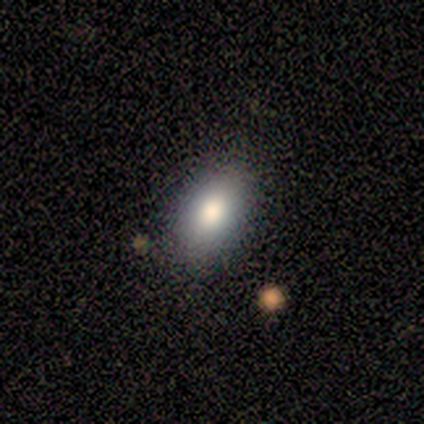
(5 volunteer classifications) Smooth or featured? 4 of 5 (80%) said smooth. How rounded? 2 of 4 (50%, tied with in between) said round. Merging? 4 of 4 (100%) said none.